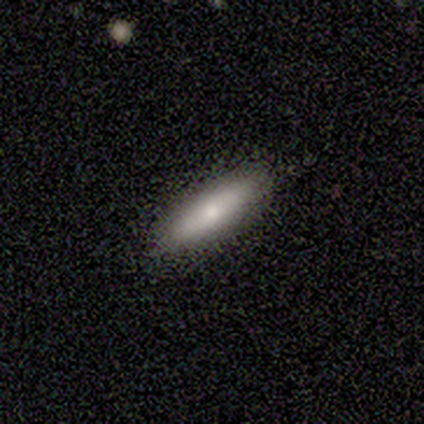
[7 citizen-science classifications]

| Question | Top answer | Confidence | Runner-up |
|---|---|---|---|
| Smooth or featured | smooth | 71% | featured or disk (14%) |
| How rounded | cigar-shaped | 80% | in between (20%) |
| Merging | none | 100% | — |